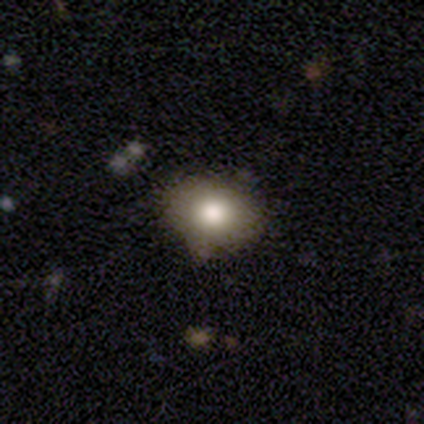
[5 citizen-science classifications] This appears to be a smooth galaxy with no disk features (60%) that is in between round and cigar-shaped (67%). Merging: none (40%, tied with minor disturbance).